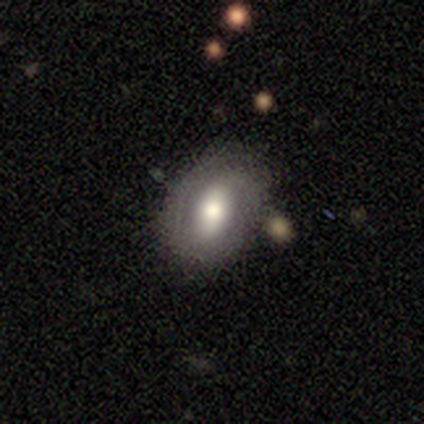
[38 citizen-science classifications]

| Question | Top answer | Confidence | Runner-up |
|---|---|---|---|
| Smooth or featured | featured or disk | 47% | smooth (39%) |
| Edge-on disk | no | 94% | yes (6%) |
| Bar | strong | 53% | no (41%) |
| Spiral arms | no | 59% | yes (41%) |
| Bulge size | large | 65% | moderate (29%) |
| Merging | none | 76% | minor disturbance (15%) |